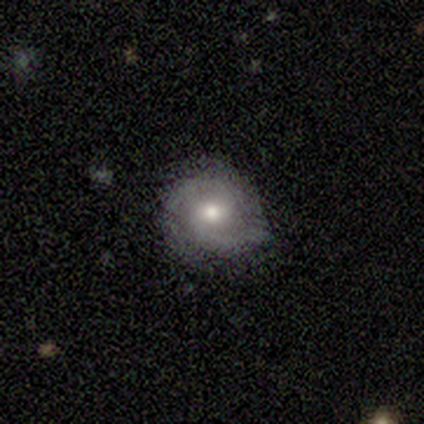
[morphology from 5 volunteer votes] Smooth or featured?
  - featured or disk: 60% *
  - smooth: 40%
  - star or artifact: 0%
Edge-on disk?
  - no: 100% *
  - yes: 0%
Bar?
  - no: 67% *
  - weak: 33%
  - strong: 0%
Spiral arms?
  - yes: 100% *
  - no: 0%
Spiral winding?
  - medium: 67% *
  - tight: 33%
  - loose: 0%
Spiral arm count?
  - 2: 100% *
  - 1: 0%
  - 3: 0%
  - 4: 0%
  - more than 4: 0%
  - can't tell: 0%
Bulge size?
  - small: 67% *
  - moderate: 33%
  - dominant: 0%
  - large: 0%
  - none: 0%
Merging?
  - none: 100% *
  - minor disturbance: 0%
  - major disturbance: 0%
  - merger: 0%